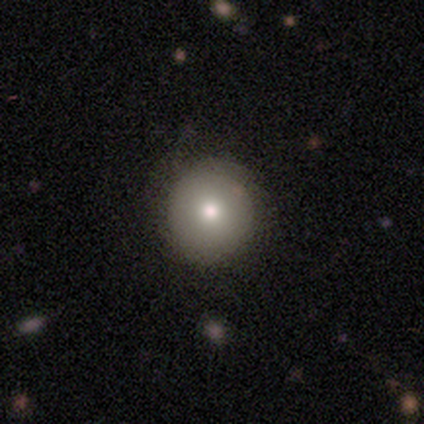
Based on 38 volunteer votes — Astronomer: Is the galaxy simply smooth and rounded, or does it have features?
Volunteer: smooth — 82%.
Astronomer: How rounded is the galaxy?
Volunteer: round — 97%.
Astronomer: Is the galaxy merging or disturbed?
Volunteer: none — 82%.